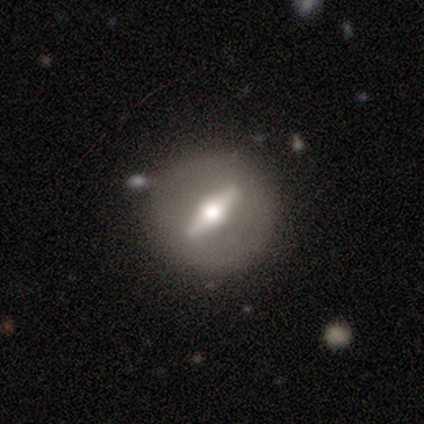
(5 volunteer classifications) featured or disk 100%, smooth 0%, star or artifact 0%. Down the decision tree: edge-on disk — no (100%); bar — strong (100%); spiral arms — no (60%); bulge size — large (60%); merging — none (80%).